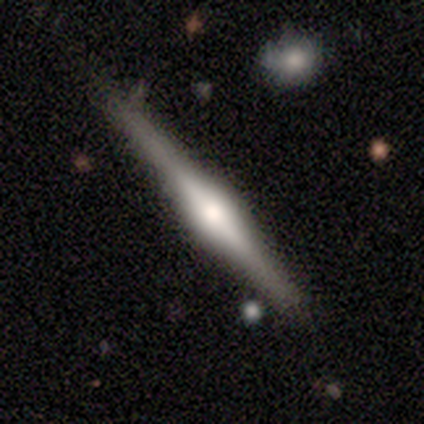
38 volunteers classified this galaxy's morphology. Volunteers were most divided on "smooth or featured": featured or disk: 66%, smooth: 29%, star or artifact: 5%. More confident: edge-on disk — yes (100%); edge-on bulge — rounded (100%); merging — none (83%).